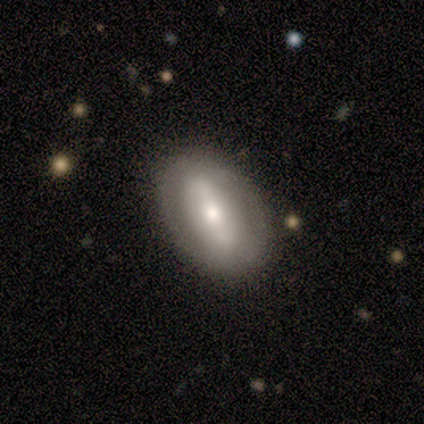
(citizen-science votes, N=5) Smooth or featured?
  - featured or disk: 60% *
  - smooth: 40%
  - star or artifact: 0%
Edge-on disk?
  - no: 100% *
  - yes: 0%
Bar?
  - strong: 33% * (tied)
  - weak: 33% * (tied)
  - no: 33% * (tied)
Spiral arms?
  - no: 67% *
  - yes: 33%
Bulge size?
  - moderate: 67% *
  - small: 33%
  - dominant: 0%
  - large: 0%
  - none: 0%
Merging?
  - none: 100% *
  - minor disturbance: 0%
  - major disturbance: 0%
  - merger: 0%